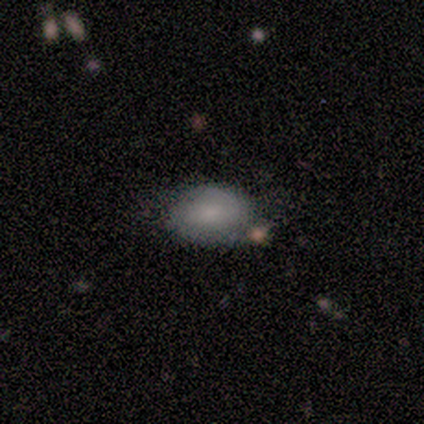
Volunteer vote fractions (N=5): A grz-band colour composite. It shows a smooth galaxy with no disk features (40%, tied with featured or disk) that is in between round and cigar-shaped (100%). Merging: none (50%, tied with minor disturbance).